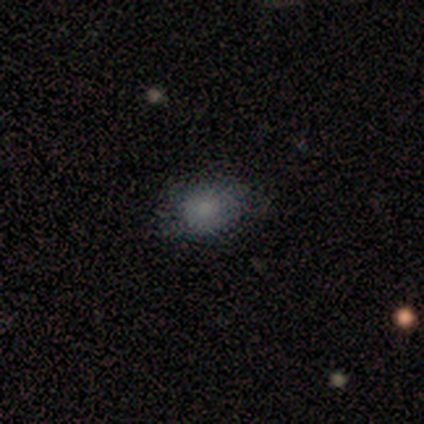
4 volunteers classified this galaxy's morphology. Volunteers were most divided on "merging" (2-way tie): none: 50%, minor disturbance: 50%, major disturbance: 0%, merger: 0%. More confident: smooth or featured — smooth (100%); how rounded — in between (75%).